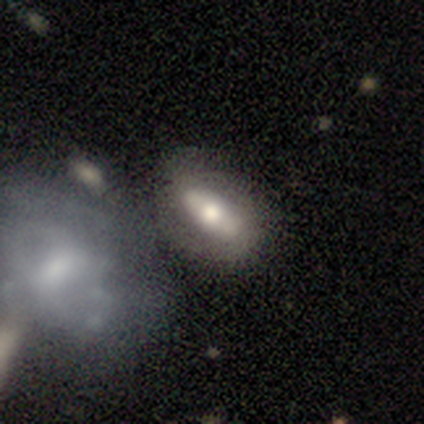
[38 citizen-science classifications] Volunteers were most divided on "smooth or featured": smooth: 55%, featured or disk: 39%, star or artifact: 5%. More confident: how rounded — in between (81%); merging — none (56%).